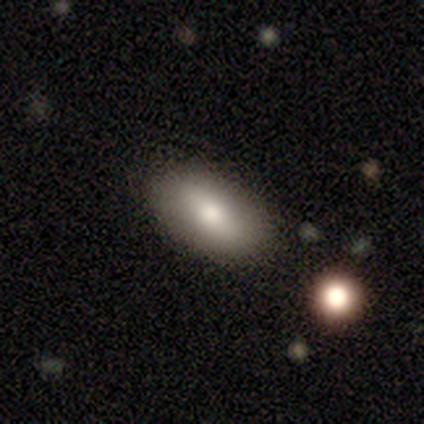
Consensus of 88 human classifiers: This is likely a smooth galaxy (73%). How rounded: clearly in between (92%). Merging: clearly none (89%).